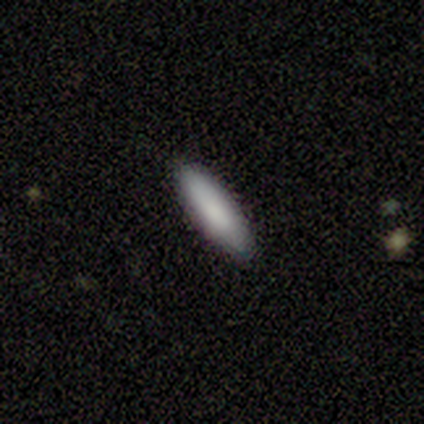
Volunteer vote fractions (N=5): This is clearly a smooth galaxy (80%). How rounded: likely cigar-shaped (75%). Merging: clearly none (80%).